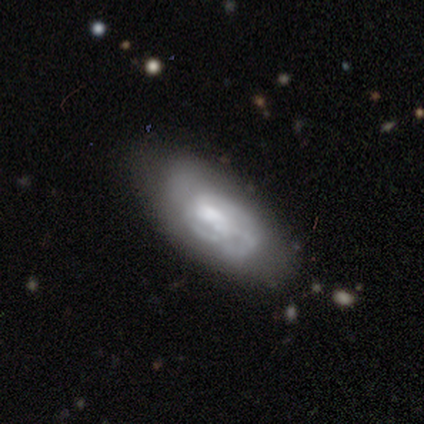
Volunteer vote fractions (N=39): Smooth or featured: featured or disk — 56% (smooth — 36%)
Edge-on disk: no — 91% (yes — 9%)
Bar: no — 65% (weak — 35%)
Spiral arms: yes — 60% (no — 40%)
Spiral winding: tight — 67% (medium — 33%)
Spiral arm count: can't tell — 42% (2 — 25%)
Bulge size: small — 40% (moderate — 25%)
Merging: none — 64% (minor disturbance — 19%)